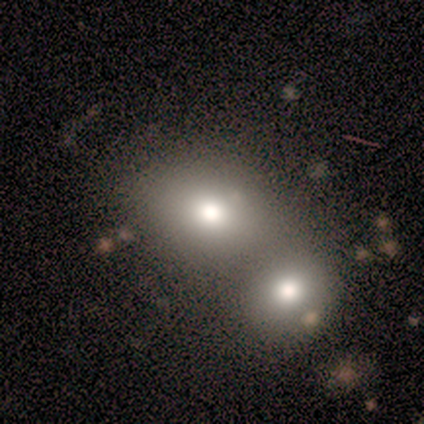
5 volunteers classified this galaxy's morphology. This appears to be a smooth galaxy with no disk features (100%) that is round (80%). Merging: none (60%).